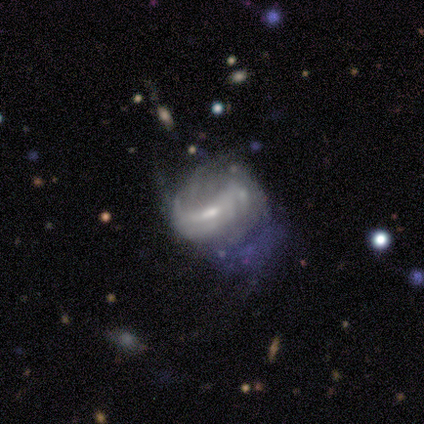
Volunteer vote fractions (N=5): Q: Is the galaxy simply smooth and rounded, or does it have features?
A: featured or disk — 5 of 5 (100%).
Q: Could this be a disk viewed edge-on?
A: no — 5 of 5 (100%).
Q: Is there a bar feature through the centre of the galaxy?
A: weak — 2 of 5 (40%, tied with no).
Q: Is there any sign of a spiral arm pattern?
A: yes — 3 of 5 (60%).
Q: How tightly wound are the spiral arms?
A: loose — 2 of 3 (67%).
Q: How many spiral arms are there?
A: can't tell — 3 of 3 (100%).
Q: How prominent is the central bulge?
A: moderate — 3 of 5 (60%).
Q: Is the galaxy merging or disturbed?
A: major disturbance — 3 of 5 (60%).